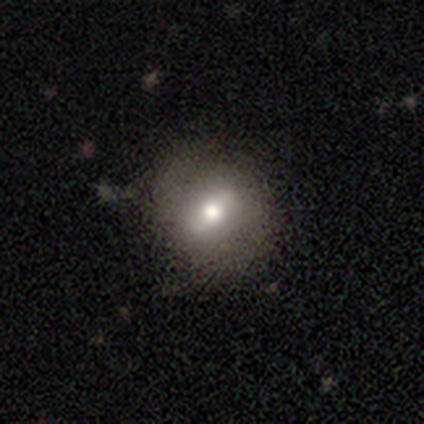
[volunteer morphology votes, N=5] A featured or disk galaxy (80%) with a strong bar (75%), no spiral arms (75%) and a moderate central bulge (75%).

Vote fractions:
- Smooth or featured? featured or disk: 80% / smooth: 20% / star or artifact: 0%
- Edge-on disk? no: 100% / yes: 0%
- Bar? strong: 75% / weak: 25% / no: 0%
- Spiral arms? no: 75% / yes: 25%
- Bulge size? moderate: 75% / small: 25% / dominant: 0% / large: 0% / none: 0%
- Merging? minor disturbance: 60% / none: 40% / major disturbance: 0% / merger: 0%